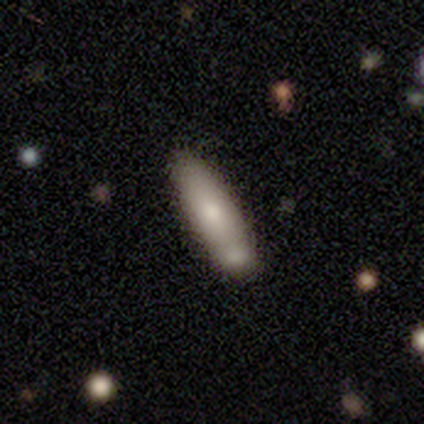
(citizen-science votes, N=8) smooth 88%, featured or disk 12%, star or artifact 0%. Down the decision tree: how rounded — cigar-shaped (57%); merging — minor disturbance (50%).